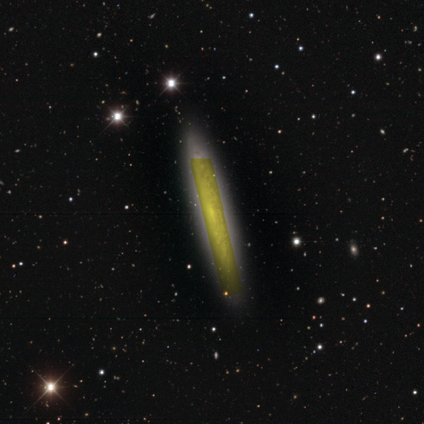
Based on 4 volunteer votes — This appears to be a featured or disk galaxy (50%) with a strong bar (50%, tied with no), tight (100%) spiral arms (50%, tied with no) and a large central bulge (50%, tied with small). Merging: none (100%).